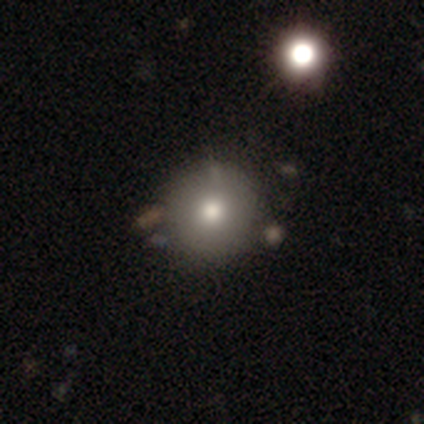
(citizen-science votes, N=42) Smooth or featured: smooth — 74% (featured or disk — 14%)
How rounded: round — 97% (in between — 3%)
Merging: none — 65% (merger — 14%)